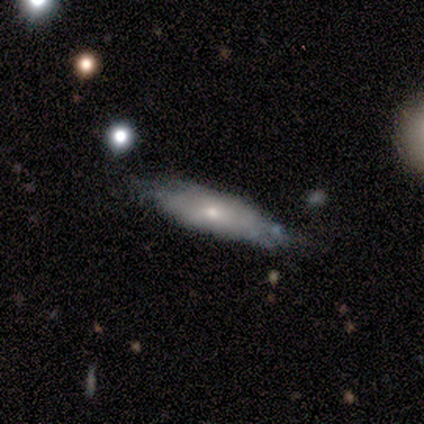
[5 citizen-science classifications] smooth 60%, featured or disk 20%, star or artifact 20%. Down the decision tree: how rounded — cigar-shaped (67%); merging — none (50%).